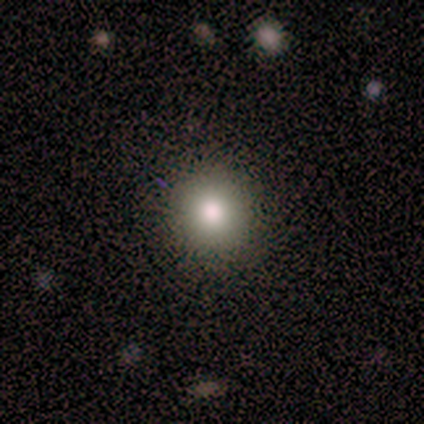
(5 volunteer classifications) Morphology: type=smooth (80%); roundness=round (100%); merging=none (100%).